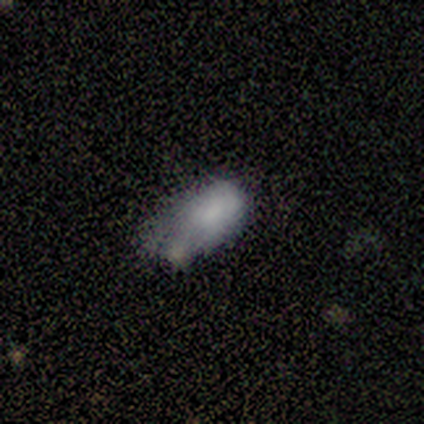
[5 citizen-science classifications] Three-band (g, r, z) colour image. It shows a smooth galaxy with no disk features (80%) that is in between round and cigar-shaped (75%). Merging: minor disturbance (50%).